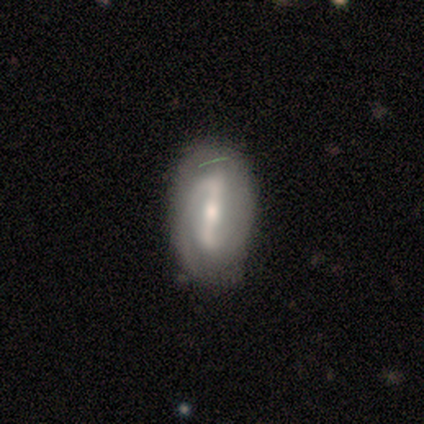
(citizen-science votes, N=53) Smooth or featured?
  - featured or disk: 75% *
  - smooth: 17%
  - star or artifact: 8%
Edge-on disk?
  - no: 92% *
  - yes: 8%
Bar?
  - strong: 81% *
  - weak: 19%
  - no: 0%
Spiral arms?
  - yes: 89% *
  - no: 11%
Spiral winding?
  - tight: 39% *
  - medium: 36%
  - loose: 24%
Spiral arm count?
  - 2: 76% *
  - can't tell: 12%
  - 1: 9%
  - 3: 3%
  - 4: 0%
  - more than 4: 0%
Bulge size?
  - moderate: 59% *
  - small: 30%
  - large: 8%
  - dominant: 3%
  - none: 0%
Merging?
  - none: 65% *
  - minor disturbance: 31%
  - major disturbance: 4%
  - merger: 0%